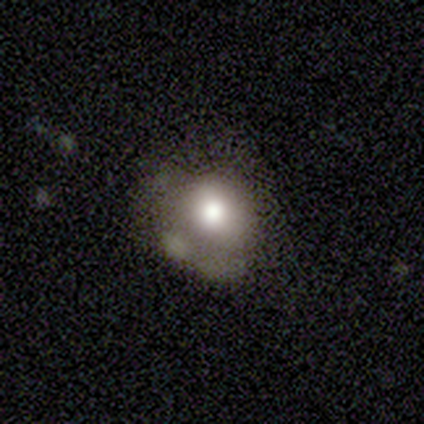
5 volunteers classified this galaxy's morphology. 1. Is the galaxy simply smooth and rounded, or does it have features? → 80% smooth, 20% star or artifact, 0% featured or disk.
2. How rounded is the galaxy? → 50% round (tied), 50% in between (tied), 0% cigar-shaped.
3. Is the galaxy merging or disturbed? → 50% none, 25% minor disturbance, 25% merger, 0% major disturbance.